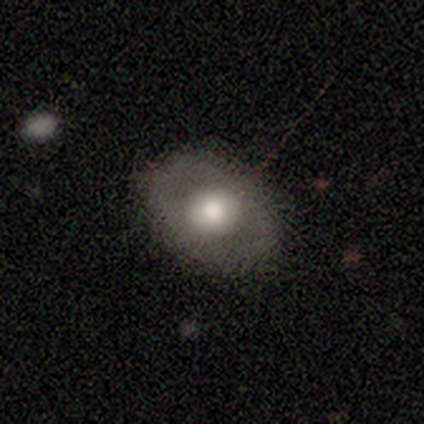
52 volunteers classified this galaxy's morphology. smooth 48% (tied), featured or disk 48% (tied), star or artifact 4%. Down the decision tree: how rounded — in between (60%); merging — none (90%).